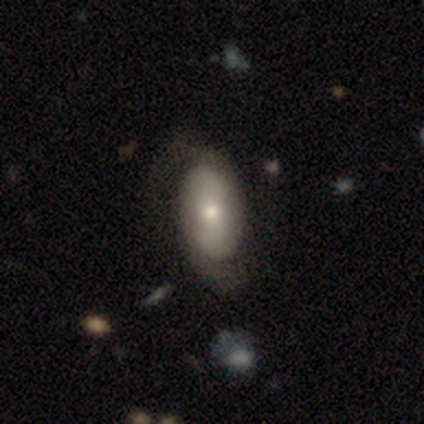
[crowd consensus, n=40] Overall: featured or disk (57%; smooth 40%). Edge-on disk: no (91%). Bar: no (67%). Spiral arms: yes (81%). Spiral arm count: 2 (82%). Spiral winding: medium (65%; loose 29%). Bulge size: moderate (62%; small 29%). Merging: none (44%; major disturbance 23%).